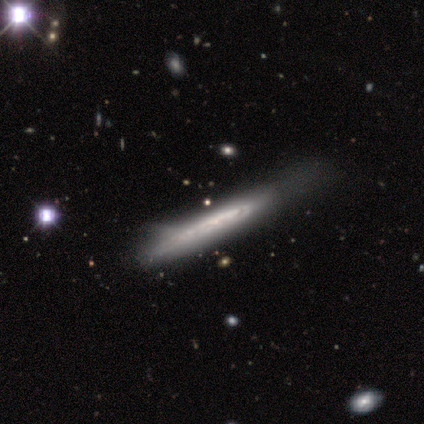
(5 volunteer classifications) Volunteers were most divided on "merging": none: 60%, minor disturbance: 40%, major disturbance: 0%, merger: 0%. More confident: smooth or featured — featured or disk (80%); edge-on disk — yes (75%); edge-on bulge — none (67%).